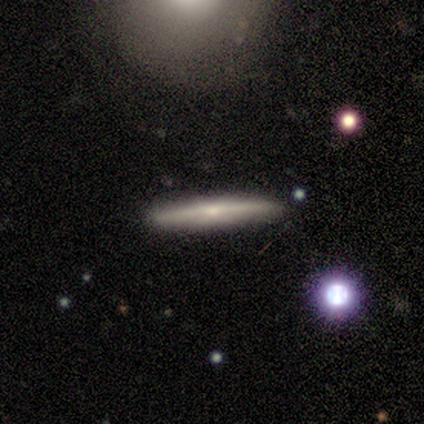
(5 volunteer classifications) This appears to be a featured or disk galaxy (60%) viewed edge-on (100%) with no central bulge (67%). Merging: none (100%).